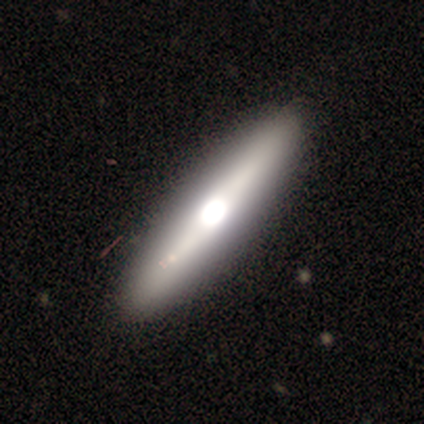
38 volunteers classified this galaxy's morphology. Smooth or featured? 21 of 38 (55%) said featured or disk. Edge-on disk? 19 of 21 (90%) said yes. Edge-on bulge? 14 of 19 (74%) said rounded. Merging? 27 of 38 (71%) said none.